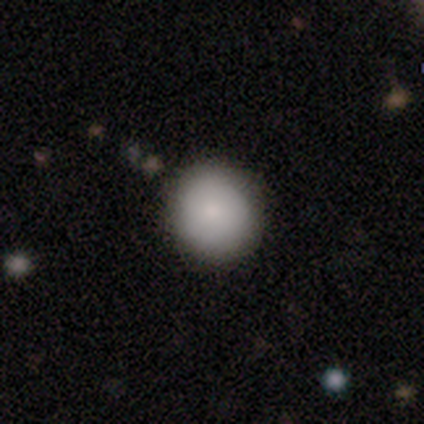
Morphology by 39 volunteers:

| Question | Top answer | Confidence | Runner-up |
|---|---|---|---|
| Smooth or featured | smooth | 85% | featured or disk (13%) |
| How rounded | round | 91% | in between (9%) |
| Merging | none | 55% | merger (5%) |